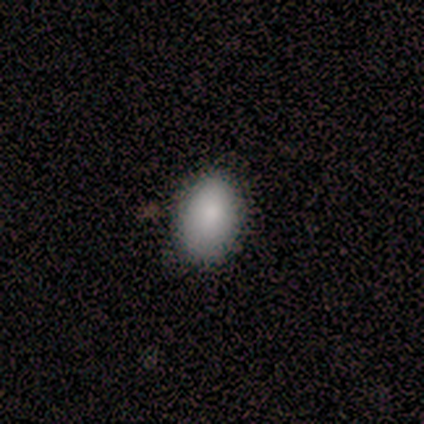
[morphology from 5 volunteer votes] Q: Smooth or featured?
A: smooth (100%)
Q: How rounded?
A: in between (60%); runner-up: round (40%)
Q: Merging?
A: none (100%)